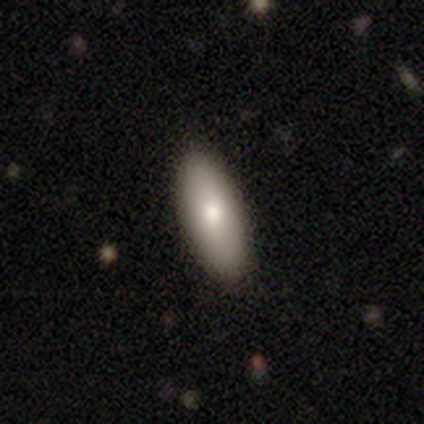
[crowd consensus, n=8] Smooth or featured?
  - smooth: 88% *
  - featured or disk: 12%
  - star or artifact: 0%
How rounded?
  - in between: 100% *
  - round: 0%
  - cigar-shaped: 0%
Merging?
  - none: 100% *
  - minor disturbance: 0%
  - major disturbance: 0%
  - merger: 0%